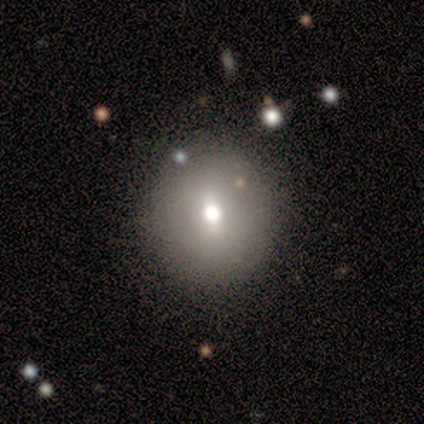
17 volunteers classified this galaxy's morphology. type=smooth (71%); roundness=round (92%); merging=none (81%).